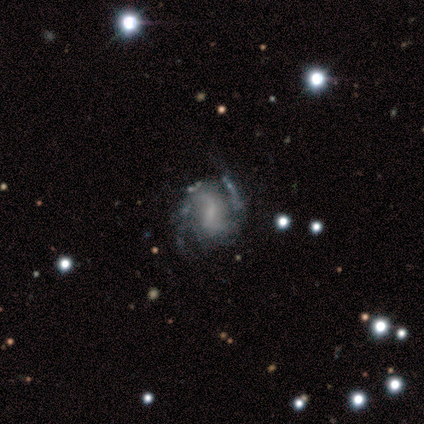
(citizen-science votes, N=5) smooth_or_featured: featured or disk (p=0.80) [alt: star or artifact p=0.20]
disk_edge_on: no (p=1.00)
bar: strong (p=0.50) [tied with: weak p=0.50]
has_spiral_arms: yes (p=1.00)
spiral_winding: medium (p=0.75) [alt: tight p=0.25]
spiral_arm_count: 2 (p=1.00)
bulge_size: small (p=0.75) [alt: none p=0.25]
merging: none (p=0.50) [alt: minor disturbance p=0.25]